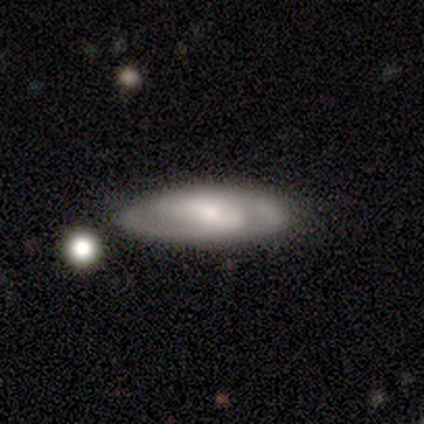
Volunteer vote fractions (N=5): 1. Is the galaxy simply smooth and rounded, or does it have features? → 100% featured or disk, 0% smooth, 0% star or artifact.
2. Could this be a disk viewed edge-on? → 80% no, 20% yes.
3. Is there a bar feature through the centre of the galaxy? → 75% weak, 25% strong, 0% no.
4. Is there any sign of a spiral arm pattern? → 100% yes, 0% no.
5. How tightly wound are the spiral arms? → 100% medium, 0% tight, 0% loose.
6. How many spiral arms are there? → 75% 2, 25% 3, 0% 1, 0% 4, 0% more than 4, 0% can't tell.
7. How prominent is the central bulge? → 75% small, 25% moderate, 0% dominant, 0% large, 0% none.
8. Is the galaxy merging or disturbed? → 100% none, 0% minor disturbance, 0% major disturbance, 0% merger.